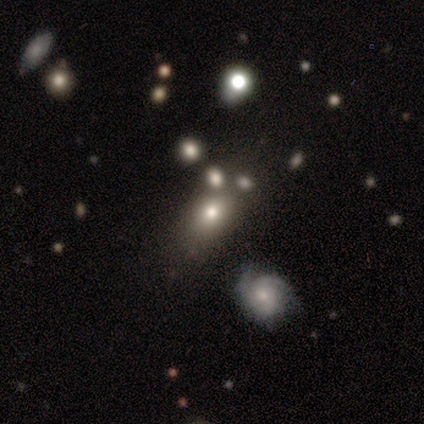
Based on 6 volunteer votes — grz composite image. It shows a smooth galaxy with no disk features (67%) that is in between round and cigar-shaped (100%). Merging: none (60%).